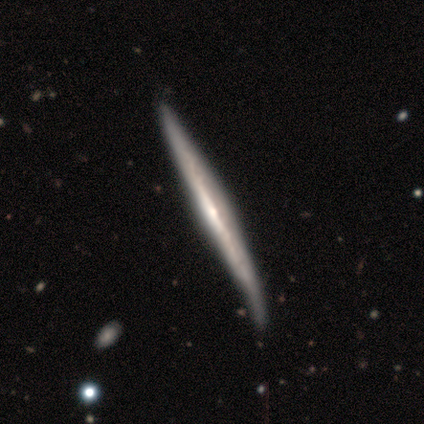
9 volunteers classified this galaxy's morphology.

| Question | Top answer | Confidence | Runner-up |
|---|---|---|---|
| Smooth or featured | featured or disk | 100% | — |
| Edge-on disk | yes | 100% | — |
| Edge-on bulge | rounded | 56% | none (44%) |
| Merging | none | 67% | minor disturbance (33%) |